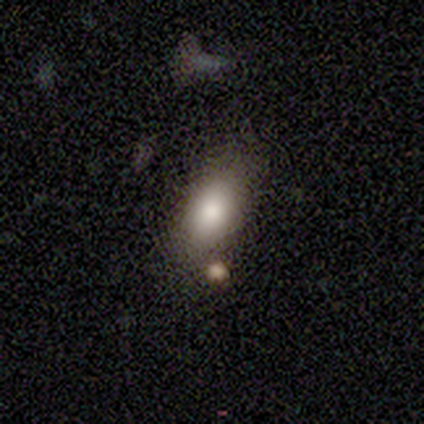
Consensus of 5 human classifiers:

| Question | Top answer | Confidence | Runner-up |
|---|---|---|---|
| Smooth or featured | smooth | 100% | — |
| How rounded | in between | 80% | cigar-shaped (20%) |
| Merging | none | 40% | tied: minor disturbance (40%) |